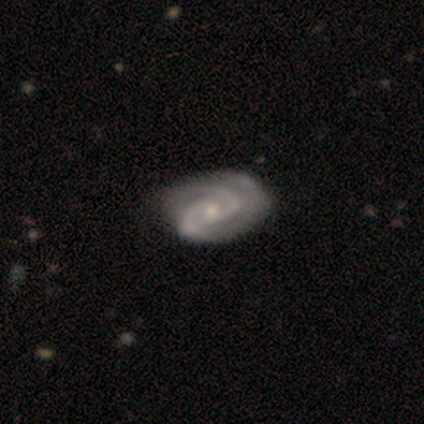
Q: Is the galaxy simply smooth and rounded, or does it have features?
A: featured or disk — 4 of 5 (80%).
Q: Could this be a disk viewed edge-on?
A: no — 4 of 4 (100%).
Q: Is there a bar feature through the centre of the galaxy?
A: no — 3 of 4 (75%).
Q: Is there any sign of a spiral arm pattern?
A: yes — 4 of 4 (100%).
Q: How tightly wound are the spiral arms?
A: medium — 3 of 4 (75%).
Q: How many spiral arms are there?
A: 2 — 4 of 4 (100%).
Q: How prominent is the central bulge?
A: small — 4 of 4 (100%).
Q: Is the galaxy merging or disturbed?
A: minor disturbance — 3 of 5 (60%).